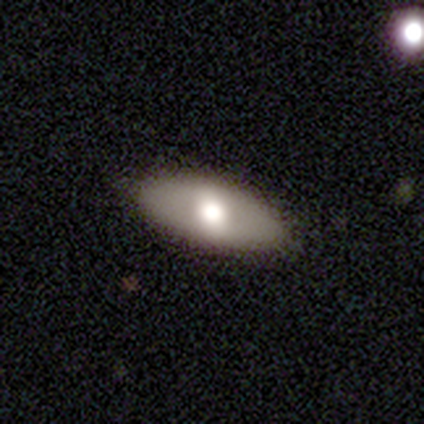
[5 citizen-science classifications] Q: Smooth or featured?
A: featured or disk (100%)
Q: Edge-on disk?
A: no (100%)
Q: Bar?
A: weak (40%); tied with: no (40%)
Q: Spiral arms?
A: no (80%); runner-up: yes (20%)
Q: Bulge size?
A: large (60%); runner-up: moderate (40%)
Q: Merging?
A: none (100%)